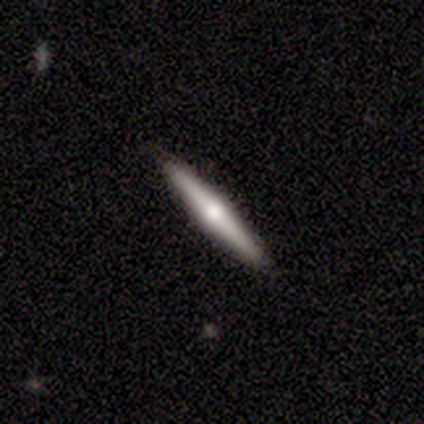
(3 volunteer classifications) Q: Smooth or featured?
A: featured or disk (67%); runner-up: smooth (33%)
Q: Edge-on disk?
A: yes (100%)
Q: Edge-on bulge?
A: rounded (100%)
Q: Merging?
A: none (67%); runner-up: minor disturbance (33%)